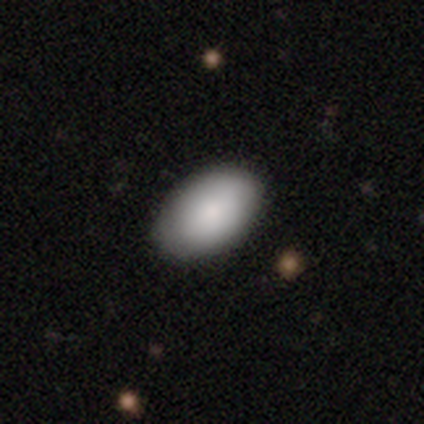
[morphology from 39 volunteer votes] Smooth or featured: smooth — 87% (featured or disk — 13%)
How rounded: in between — 100%
Merging: none — 82% (minor disturbance — 15%)